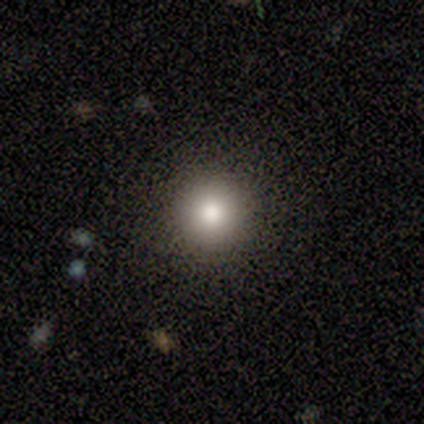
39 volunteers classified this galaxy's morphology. type=smooth (79%); roundness=round (100%); merging=none (94%).